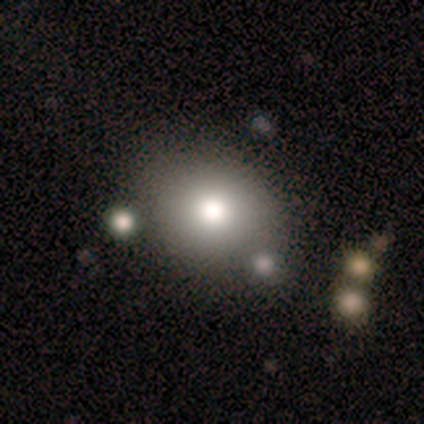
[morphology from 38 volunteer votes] smooth_or_featured: smooth (p=0.79) [alt: featured or disk p=0.13]
how_rounded: round (p=0.77) [alt: in between p=0.23]
merging: none (p=0.66) [alt: merger p=0.11]